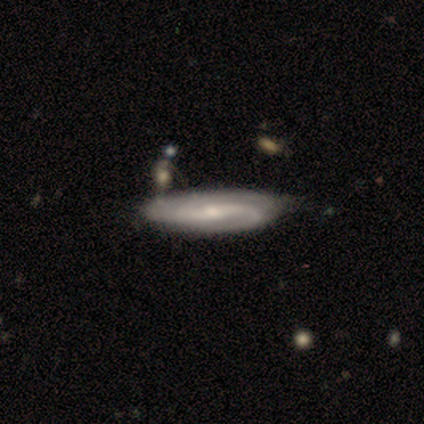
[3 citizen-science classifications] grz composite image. It shows a featured or disk galaxy (100%) with a weak bar (100%), 2 (67%) medium (67%) spiral arms (100%) and a small central bulge (67%). Merging: none (100%).